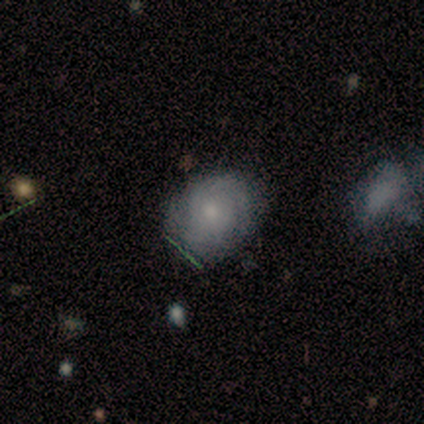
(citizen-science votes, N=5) A smooth galaxy with no disk features (40%, tied with featured or disk) that is round (50%, tied with in between). Merging: none (100%).